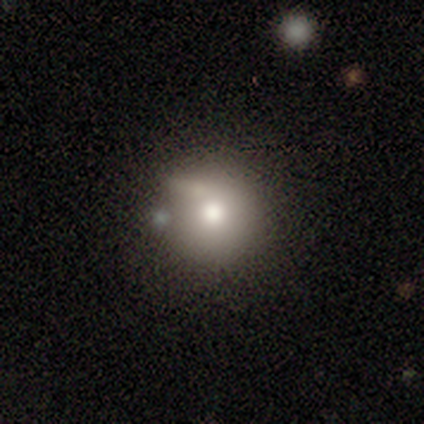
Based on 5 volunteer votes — Smooth or featured? featured or disk (60%)
Edge-on disk? no (100%)
Bar? no (100%)
Spiral arms? no (100%)
Bulge size? moderate (100%)
Merging? none (60%)